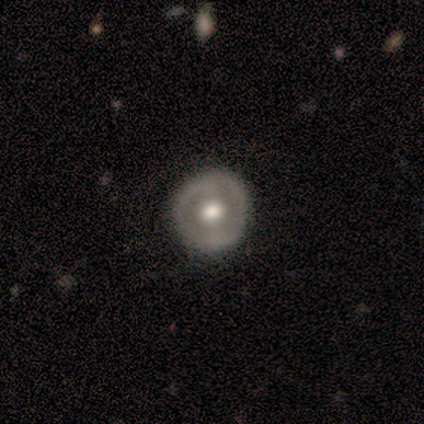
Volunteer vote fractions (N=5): Smooth or featured?
  - smooth: 40% * (tied)
  - featured or disk: 40% * (tied)
  - star or artifact: 20%
How rounded?
  - round: 100% *
  - in between: 0%
  - cigar-shaped: 0%
Merging?
  - none: 75% *
  - major disturbance: 25%
  - minor disturbance: 0%
  - merger: 0%